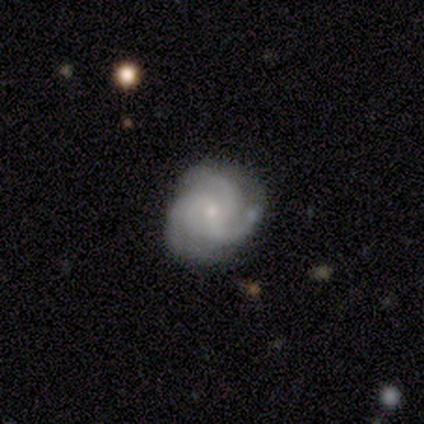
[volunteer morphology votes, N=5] smooth-or-featured: featured or disk: 80% | star or artifact: 20% | smooth: 0%
  disk-edge-on: no: 100% | yes: 0%
    bar: no: 100% | strong: 0% | weak: 0%
    has-spiral-arms: yes: 75% | no: 25%
      spiral-winding: medium: 67% | tight: 33% | loose: 0%
      spiral-arm-count: 3: 100% | 1: 0% | 2: 0% | 4: 0% | more than 4: 0% | can't tell: 0%
    bulge-size: small: 100% | dominant: 0% | large: 0% | moderate: 0% | none: 0%
  merging: none: 100% | minor disturbance: 0% | major disturbance: 0% | merger: 0%